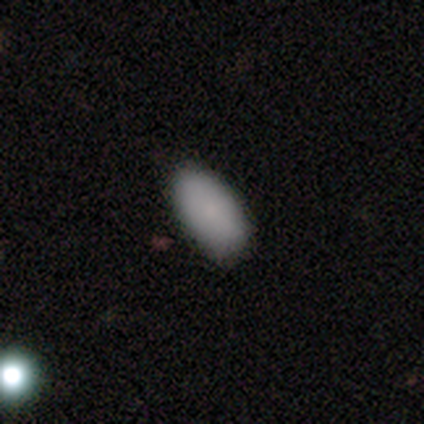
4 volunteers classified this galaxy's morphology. Smooth or featured?
  - smooth: 100% *
  - featured or disk: 0%
  - star or artifact: 0%
How rounded?
  - in between: 100% *
  - round: 0%
  - cigar-shaped: 0%
Merging?
  - none: 75% *
  - minor disturbance: 25%
  - major disturbance: 0%
  - merger: 0%